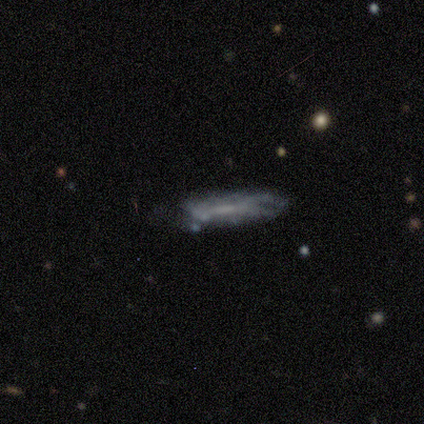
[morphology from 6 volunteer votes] Smooth or featured?
  - featured or disk: 67% *
  - smooth: 33%
  - star or artifact: 0%
Edge-on disk?
  - yes: 75% *
  - no: 25%
Edge-on bulge?
  - none: 67% *
  - boxy: 33%
  - rounded: 0%
Merging?
  - none: 50% * (tied)
  - minor disturbance: 50% * (tied)
  - major disturbance: 0%
  - merger: 0%